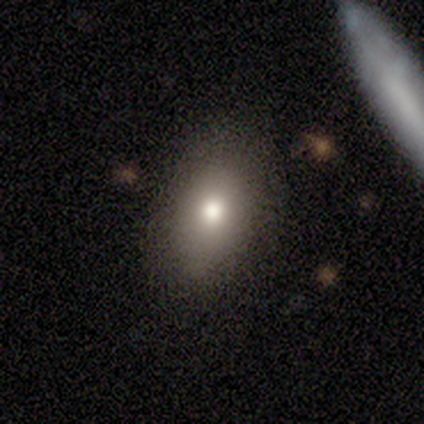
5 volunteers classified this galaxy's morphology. Smooth or featured: smooth — 80% (featured or disk — 20%)
How rounded: in between — 100%
Merging: none — 80% (minor disturbance — 20%)